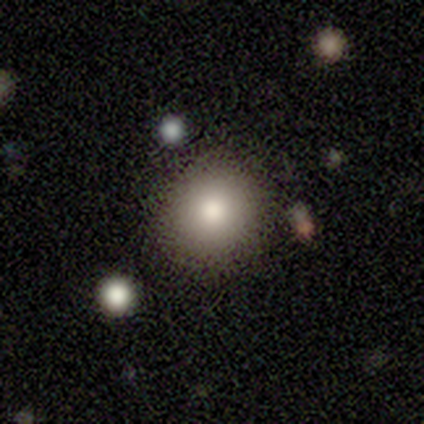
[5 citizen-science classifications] This appears to be a smooth galaxy with no disk features (80%) that is round (100%). Merging: none (100%).